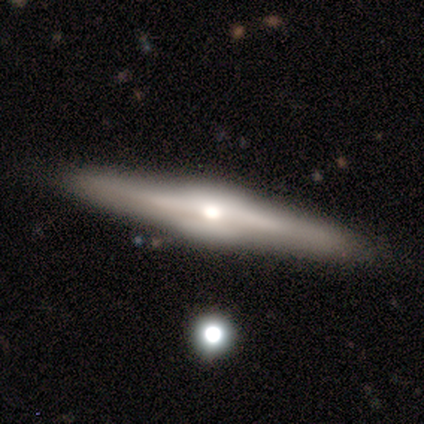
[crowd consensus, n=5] Smooth or featured? featured or disk (100%)
Edge-on disk? yes (100%)
Edge-on bulge? rounded (60%)
Merging? none (80%)